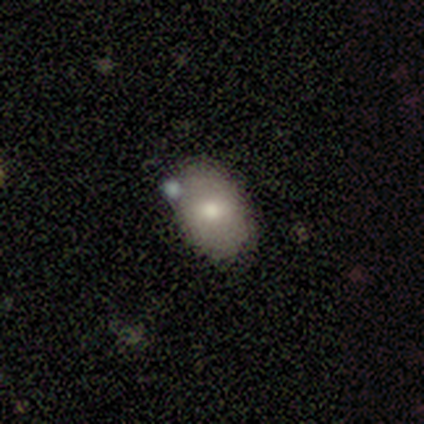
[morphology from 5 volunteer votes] A smooth galaxy with no disk features (100%) that is in between round and cigar-shaped (80%).

Vote fractions:
- Smooth or featured? smooth: 100% / featured or disk: 0% / star or artifact: 0%
- How rounded? in between: 80% / round: 20% / cigar-shaped: 0%
- Merging? none: 60% / major disturbance: 20% / merger: 20% / minor disturbance: 0%